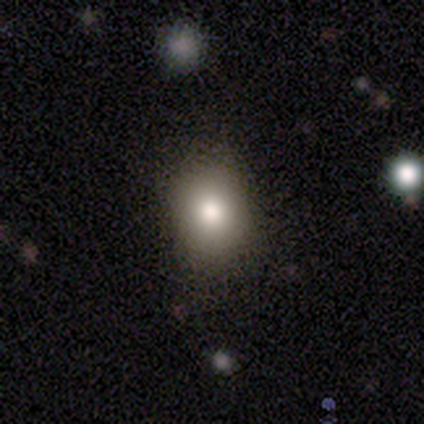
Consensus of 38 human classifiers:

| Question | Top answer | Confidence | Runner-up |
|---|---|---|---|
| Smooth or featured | smooth | 89% | featured or disk (8%) |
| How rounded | in between | 53% | round (47%) |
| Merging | none | 86% | minor disturbance (8%) |